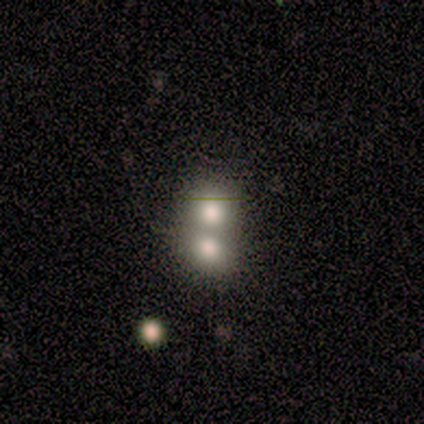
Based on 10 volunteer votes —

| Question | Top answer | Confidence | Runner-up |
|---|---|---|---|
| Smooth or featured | smooth | 90% | star or artifact (10%) |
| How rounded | in between | 78% | round (22%) |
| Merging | merger | 100% | — |